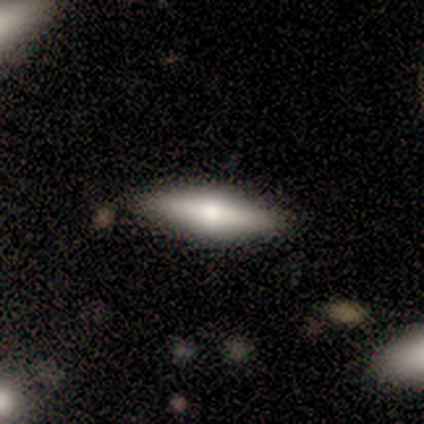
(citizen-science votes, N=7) This appears to be a featured or disk galaxy (57%) viewed edge-on (100%) with a rounded central bulge (75%). Merging: none (100%).